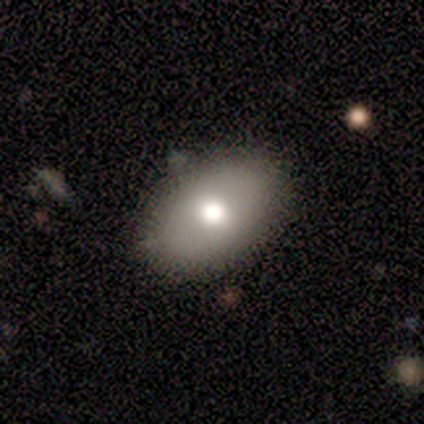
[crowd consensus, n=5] This appears to be a smooth galaxy with no disk features (80%) that is round (50%, tied with in between). Merging: none (75%).